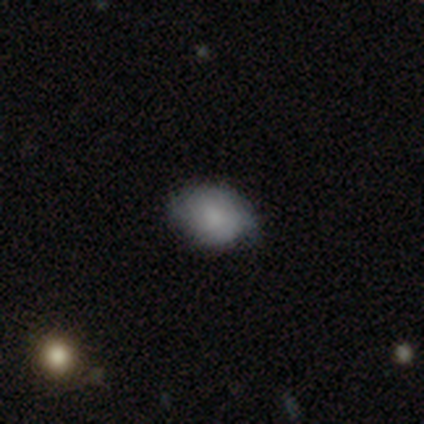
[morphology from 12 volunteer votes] Volunteers were most divided on "smooth or featured": smooth: 58%, featured or disk: 33%, star or artifact: 8%. More confident: merging — none (73%); how rounded — in between (71%).